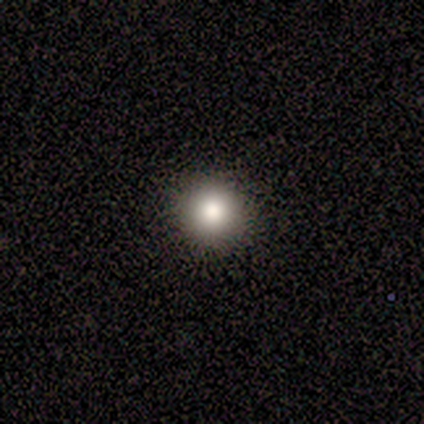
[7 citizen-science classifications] Q: Smooth or featured?
A: smooth (71%); runner-up: featured or disk (14%)
Q: How rounded?
A: round (100%)
Q: Merging?
A: none (100%)